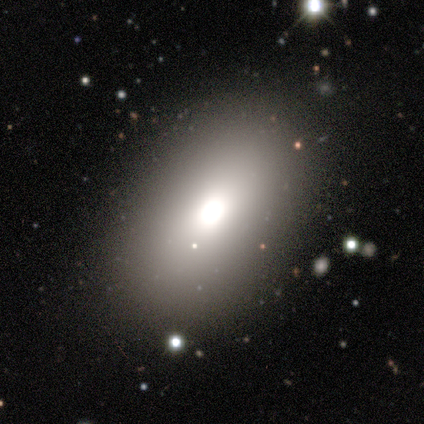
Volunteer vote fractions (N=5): smooth_or_featured: smooth (p=1.00)
how_rounded: in between (p=0.80) [alt: round p=0.20]
merging: none (p=0.80) [alt: minor disturbance p=0.20]